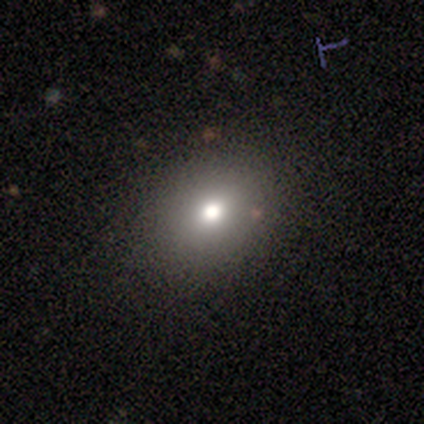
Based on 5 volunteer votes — smooth 80%, star or artifact 20%, featured or disk 0%. Down the decision tree: how rounded — round (75%); merging — none (100%).